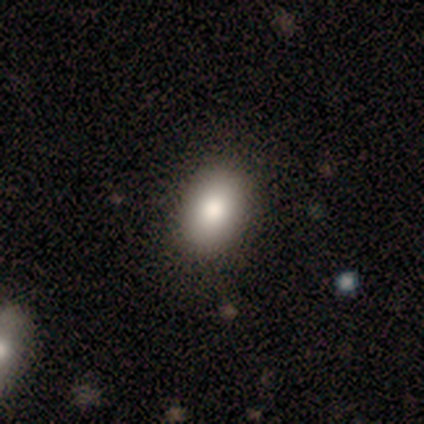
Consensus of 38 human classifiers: Volunteers were most divided on "smooth or featured": smooth: 87%, featured or disk: 8%, star or artifact: 5%. More confident: merging — none (94%); how rounded — in between (91%).